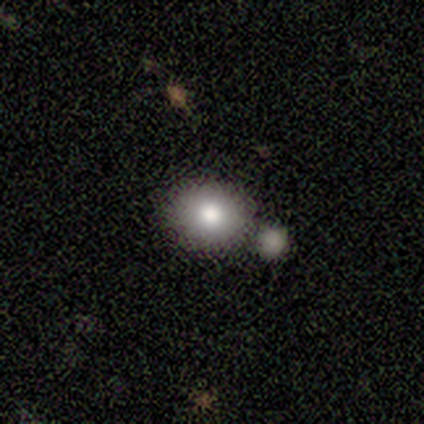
Morphology: type=smooth (75%); roundness=round (100%); merging=none (86%).